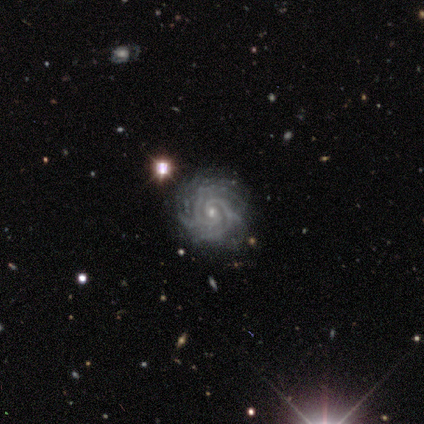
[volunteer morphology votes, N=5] smooth-or-featured: featured or disk: 100% | smooth: 0% | star or artifact: 0%
  disk-edge-on: no: 100% | yes: 0%
    bar: no: 60% | weak: 40% | strong: 0%
    has-spiral-arms: yes: 100% | no: 0%
      spiral-winding: tight: 100% | medium: 0% | loose: 0%
      spiral-arm-count: 2: 60% | can't tell: 40% | 1: 0% | 3: 0% | 4: 0% | more than 4: 0%
    bulge-size: small: 100% | dominant: 0% | large: 0% | moderate: 0% | none: 0%
  merging: none: 60% | minor disturbance: 40% | major disturbance: 0% | merger: 0%